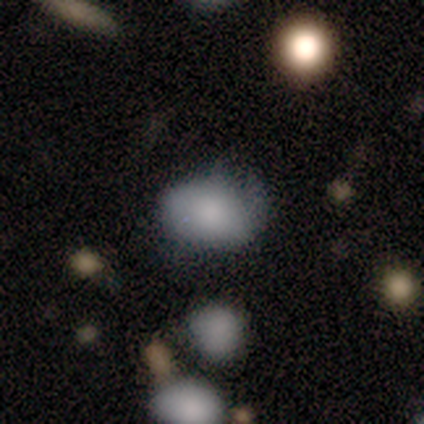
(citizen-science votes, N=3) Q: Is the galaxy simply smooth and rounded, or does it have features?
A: smooth — 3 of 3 (100%).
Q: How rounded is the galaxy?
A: in between — 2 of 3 (67%).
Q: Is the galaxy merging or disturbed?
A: none — 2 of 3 (67%).